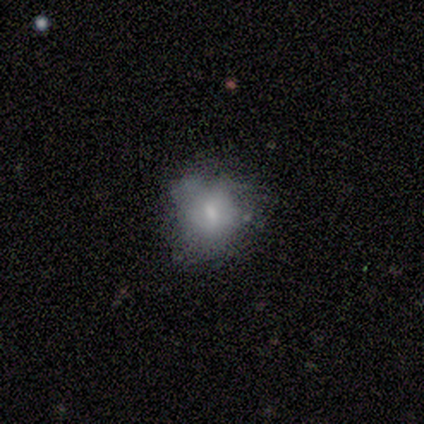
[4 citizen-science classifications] A smooth galaxy with no disk features (75%) that is round (67%). Merging: none (50%, tied with minor disturbance).